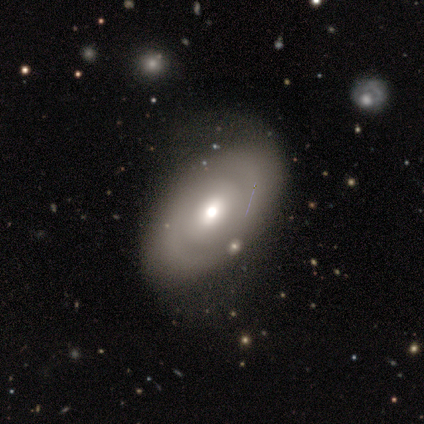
Smooth or featured?
  - featured or disk: 63% *
  - smooth: 33%
  - star or artifact: 4%
Edge-on disk?
  - no: 91% *
  - yes: 9%
Bar?
  - no: 74% *
  - weak: 26%
  - strong: 0%
Spiral arms?
  - no: 63% *
  - yes: 37%
Bulge size?
  - moderate: 56% *
  - large: 30%
  - small: 9%
  - dominant: 5%
  - none: 0%
Merging?
  - none: 72% *
  - minor disturbance: 22%
  - merger: 4%
  - major disturbance: 1%